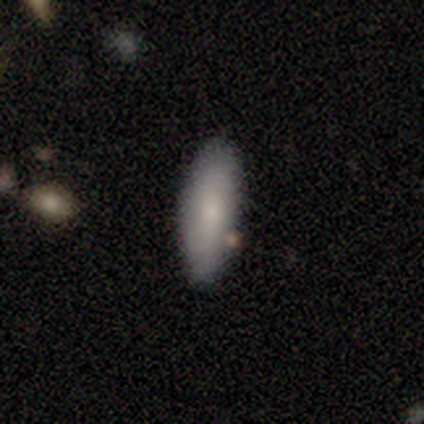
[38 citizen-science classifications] Morphology: type=smooth (71%); roundness=in between (63%); merging=none (81%).